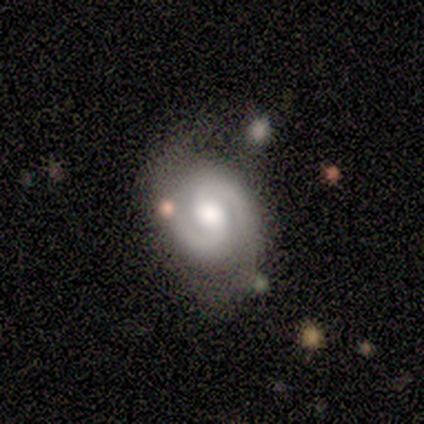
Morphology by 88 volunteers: smooth-or-featured: featured or disk: 88% | smooth: 8% | star or artifact: 5%
  disk-edge-on: no: 99% | yes: 1%
    bar: weak: 46% (tied) | no: 46% (tied) | strong: 8%
    has-spiral-arms: yes: 97% | no: 3%
      spiral-winding: medium: 49% | tight: 42% | loose: 9%
      spiral-arm-count: 2: 97% | 1: 3% | 3: 0% | 4: 0% | more than 4: 0% | can't tell: 0%
    bulge-size: moderate: 62% | large: 30% | small: 5% | dominant: 3% | none: 0%
  merging: none: 68% | minor disturbance: 18% | major disturbance: 8% | merger: 6%